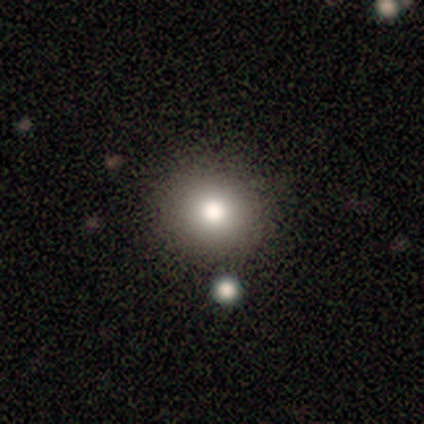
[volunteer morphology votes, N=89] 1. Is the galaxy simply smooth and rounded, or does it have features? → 81% smooth, 17% star or artifact, 2% featured or disk.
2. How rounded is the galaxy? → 89% round, 11% in between, 0% cigar-shaped.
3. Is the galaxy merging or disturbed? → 82% none, 9% merger, 8% minor disturbance, 0% major disturbance.